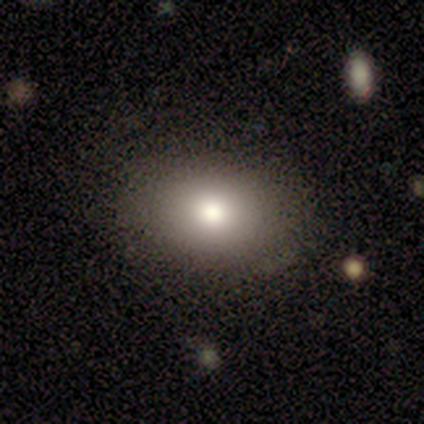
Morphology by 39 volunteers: Q: Smooth or featured?
A: smooth (82%); runner-up: featured or disk (15%)
Q: How rounded?
A: in between (81%); runner-up: round (19%)
Q: Merging?
A: none (95%); runner-up: minor disturbance (3%)